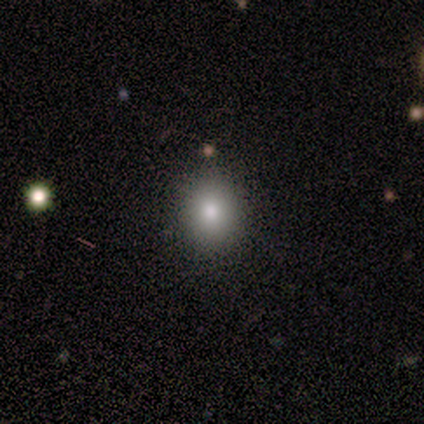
Smooth or featured? smooth (40%, tied with star or artifact)
How rounded? round (100%)
Merging? none (67%)